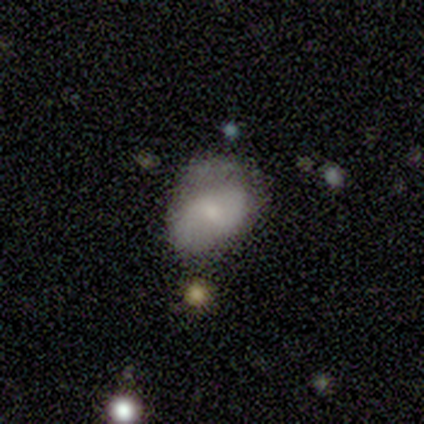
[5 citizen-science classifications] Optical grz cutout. It shows a smooth galaxy with no disk features (60%) that is in between round and cigar-shaped (67%). Merging: minor disturbance (60%).